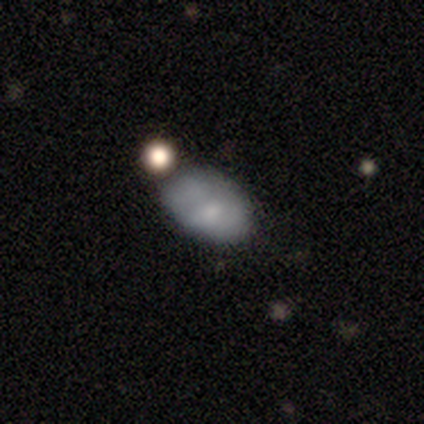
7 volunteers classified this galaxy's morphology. Overall: smooth (100%). How rounded: in between (100%). Merging: none (86%).